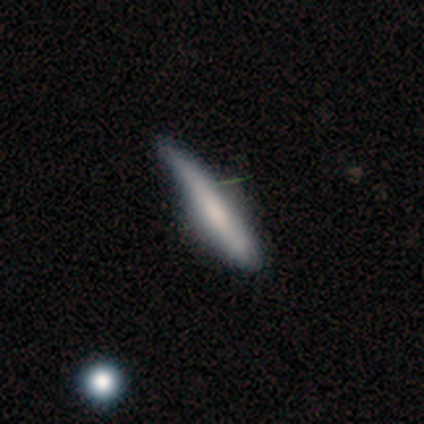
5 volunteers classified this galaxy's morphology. A smooth galaxy with no disk features (80%) that is cigar-shaped (100%).

Vote fractions:
- Smooth or featured? smooth: 80% / featured or disk: 20% / star or artifact: 0%
- How rounded? cigar-shaped: 100% / round: 0% / in between: 0%
- Merging? none: 80% / minor disturbance: 20% / major disturbance: 0% / merger: 0%